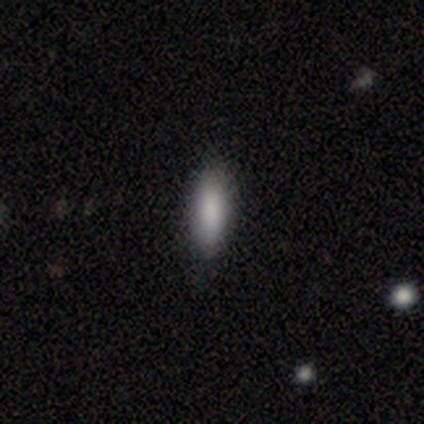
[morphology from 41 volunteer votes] Q: Smooth or featured?
A: smooth (85%); runner-up: star or artifact (12%)
Q: How rounded?
A: in between (57%); runner-up: cigar-shaped (43%)
Q: Merging?
A: none (94%); runner-up: minor disturbance (6%)